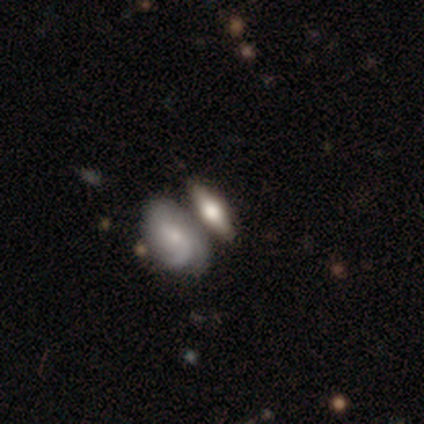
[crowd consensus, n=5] This appears to be a featured or disk galaxy (60%) with a weak bar (100%), 1 (50%, tied with can't tell) tight (100%) spiral arms (100%) and a moderate central bulge (100%). Merging: merger (80%).